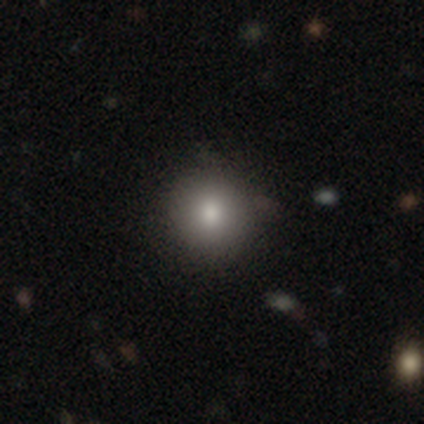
This appears to be a smooth galaxy with no disk features (82%) that is round (97%). Merging: none (83%).